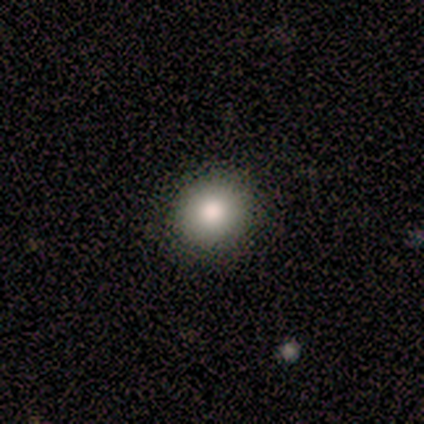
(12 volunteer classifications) Morphology: type=smooth (83%); roundness=round (80%); merging=none (92%).